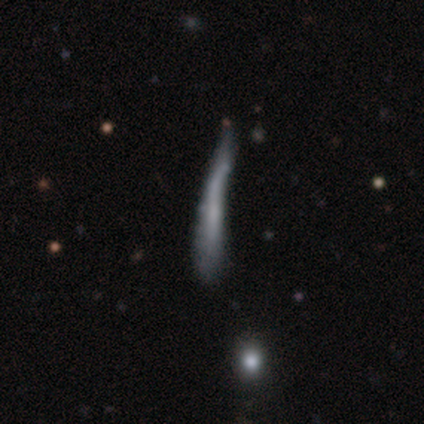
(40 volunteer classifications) Smooth or featured: featured or disk — 48% (smooth — 35%)
Edge-on disk: yes — 84% (no — 16%)
Edge-on bulge: none — 94% (boxy — 6%)
Merging: none — 33% (tied with major disturbance — 33%)